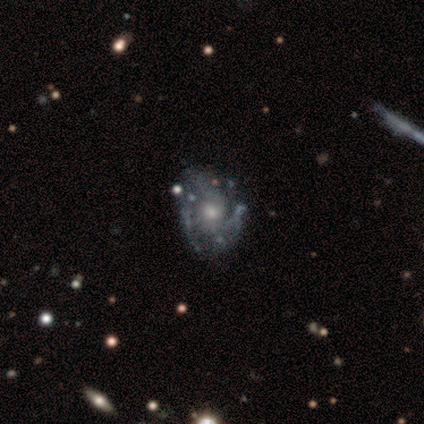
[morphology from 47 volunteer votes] type=featured or disk (87%); edge-on=no (100%); bar=no (95%); spiral arms=yes (66%); winding=tight (44%); arm count=3 (52%); bulge=moderate (63%); merging=none (59%).